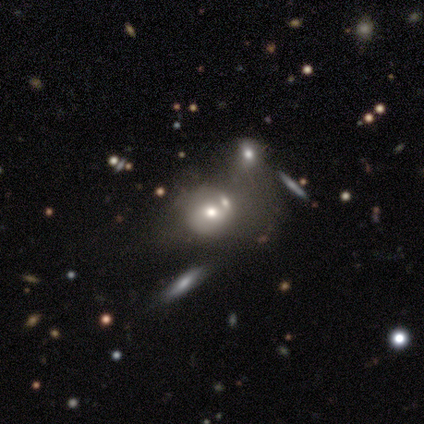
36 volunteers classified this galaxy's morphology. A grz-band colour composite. It shows a smooth galaxy with no disk features (44%) that is round (75%). Merging: merger (47%).